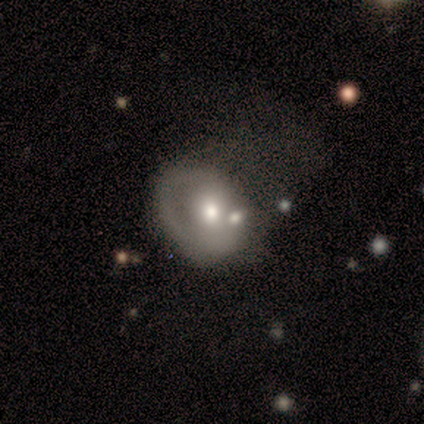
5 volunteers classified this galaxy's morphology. Smooth or featured?
  - featured or disk: 60% *
  - smooth: 40%
  - star or artifact: 0%
Edge-on disk?
  - no: 100% *
  - yes: 0%
Bar?
  - no: 100% *
  - strong: 0%
  - weak: 0%
Spiral arms?
  - no: 100% *
  - yes: 0%
Bulge size?
  - small: 67% *
  - moderate: 33%
  - dominant: 0%
  - large: 0%
  - none: 0%
Merging?
  - minor disturbance: 40% *
  - none: 20%
  - major disturbance: 20%
  - merger: 20%